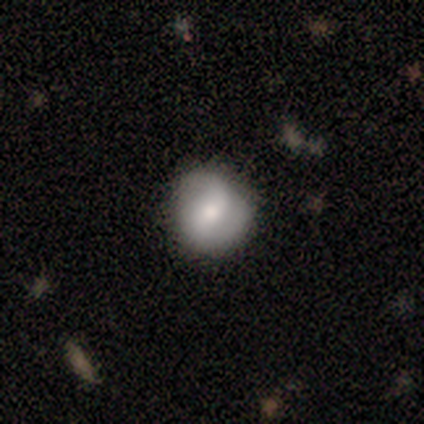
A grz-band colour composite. It shows a smooth galaxy with no disk features (56%) that is round (82%). Merging: none (83%).